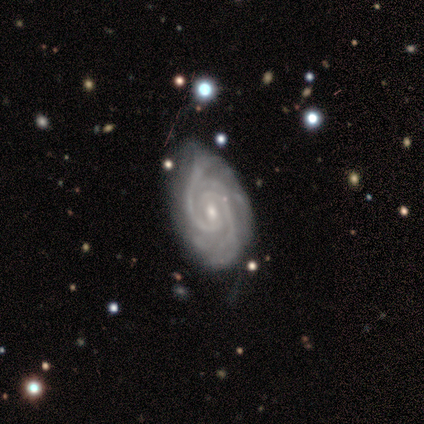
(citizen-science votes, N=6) Smooth or featured? 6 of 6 (100%) said featured or disk. Edge-on disk? 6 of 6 (100%) said no. Bar? 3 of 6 (50%) said weak. Spiral arms? 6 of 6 (100%) said yes. Spiral winding? 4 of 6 (67%) said tight. Spiral arm count? 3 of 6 (50%, tied with 4) said 2. Bulge size? 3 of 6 (50%, tied with small) said moderate. Merging? 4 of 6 (67%) said none.